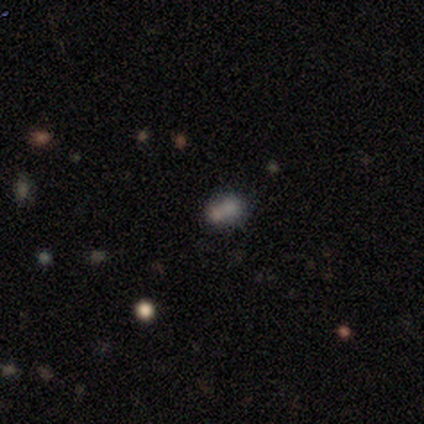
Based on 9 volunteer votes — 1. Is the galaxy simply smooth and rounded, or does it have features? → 56% smooth, 22% featured or disk, 22% star or artifact.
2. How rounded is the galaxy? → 80% in between, 20% round, 0% cigar-shaped.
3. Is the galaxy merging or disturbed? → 71% none, 29% merger, 0% minor disturbance, 0% major disturbance.